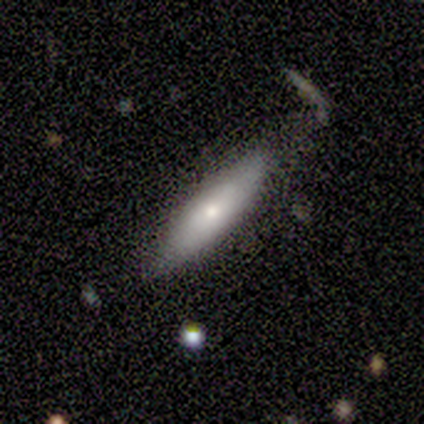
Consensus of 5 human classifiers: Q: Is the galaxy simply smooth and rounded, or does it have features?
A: featured or disk — 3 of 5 (60%).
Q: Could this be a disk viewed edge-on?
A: no — 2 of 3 (67%).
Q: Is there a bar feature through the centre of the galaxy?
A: no — 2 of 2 (100%).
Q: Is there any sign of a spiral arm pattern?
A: no — 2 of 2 (100%).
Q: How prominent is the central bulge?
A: moderate — 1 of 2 (50%, tied with small).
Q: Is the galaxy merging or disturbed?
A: none — 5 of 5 (100%).